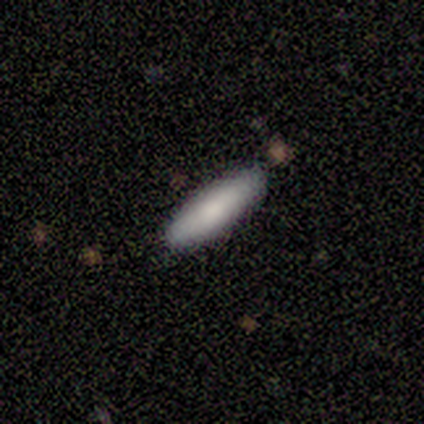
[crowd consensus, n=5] smooth-or-featured: smooth: 40% (tied) | featured or disk: 40% (tied) | star or artifact: 20%
  how-rounded: cigar-shaped: 100% | round: 0% | in between: 0%
  merging: none: 75% | minor disturbance: 25% | major disturbance: 0% | merger: 0%